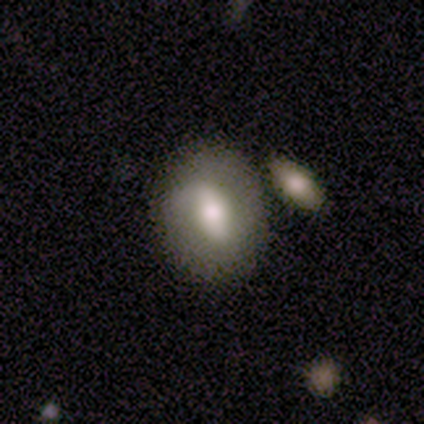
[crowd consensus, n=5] Volunteers were most divided on "how rounded": in between: 75%, round: 25%, cigar-shaped: 0%. More confident: smooth or featured — smooth (80%); merging — none (80%).